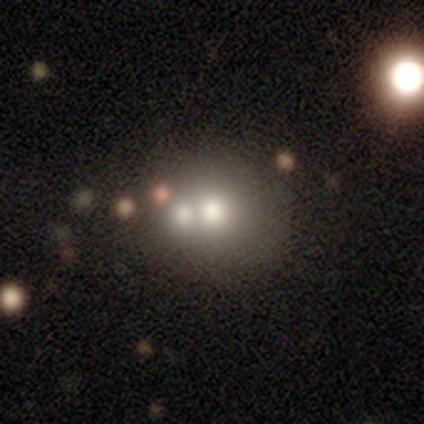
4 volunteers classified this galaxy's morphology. Overall: smooth (75%). How rounded: in between (67%; round 33%). Merging: merger (50%; none 25%).